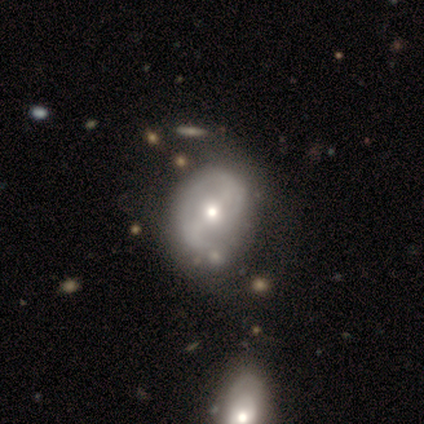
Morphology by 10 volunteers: Overall: featured or disk (70%). Edge-on disk: no (100%). Bar: strong (57%; weak 29%). Spiral arms: yes (57%; no 43%). Spiral arm count: 2 (75%). Spiral winding: medium (50%; tight 25%). Bulge size: moderate (71%). Merging: none (44%; minor disturbance 33%).